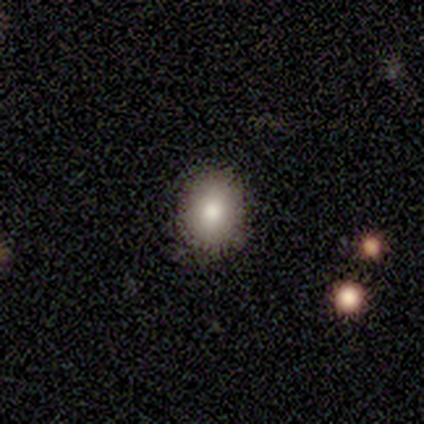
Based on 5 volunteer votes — Smooth or featured? smooth (100%)
How rounded? round (80%)
Merging? none (80%)